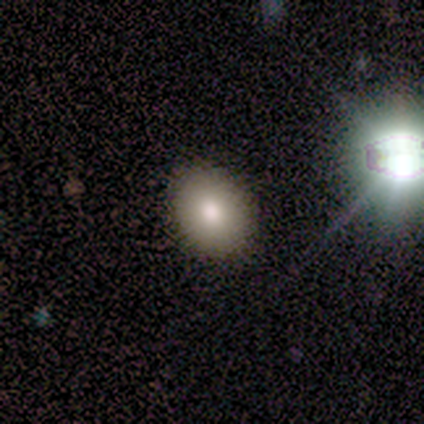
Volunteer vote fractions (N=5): A smooth galaxy with no disk features (80%) that is round (75%).

Vote fractions:
- Smooth or featured? smooth: 80% / star or artifact: 20% / featured or disk: 0%
- How rounded? round: 75% / in between: 25% / cigar-shaped: 0%
- Merging? none: 100% / minor disturbance: 0% / major disturbance: 0% / merger: 0%